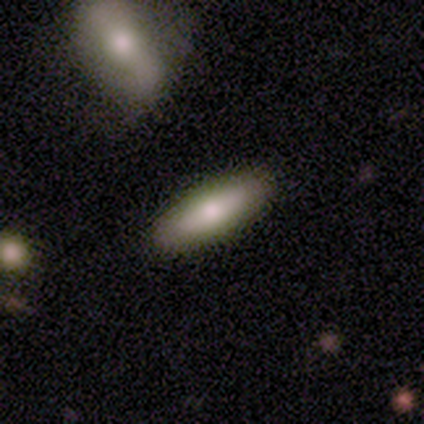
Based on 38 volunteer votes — This appears to be a smooth galaxy with no disk features (68%) that is cigar-shaped (58%). Merging: none (94%).